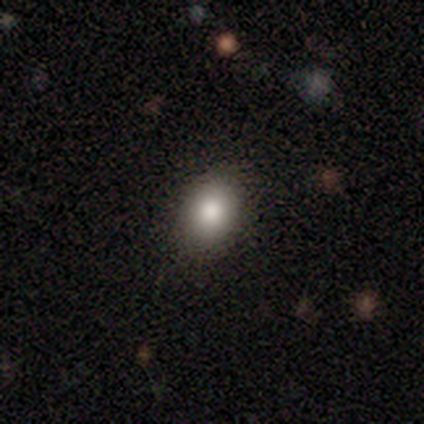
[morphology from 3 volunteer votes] Smooth or featured? smooth (100%)
How rounded? in between (100%)
Merging? none (100%)